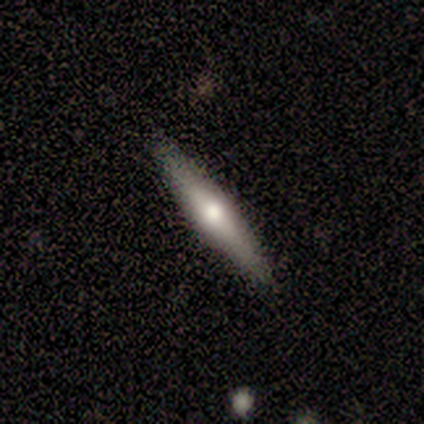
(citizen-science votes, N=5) smooth_or_featured: featured or disk (p=0.60) [alt: smooth p=0.40]
disk_edge_on: yes (p=1.00)
edge_on_bulge: rounded (p=1.00)
merging: none (p=1.00)